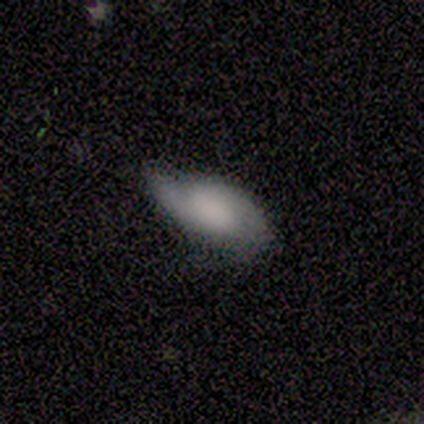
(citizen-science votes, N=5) Smooth or featured: featured or disk — 60% (smooth — 40%)
Edge-on disk: no — 100%
Bar: no — 67% (weak — 33%)
Spiral arms: yes — 67% (no — 33%)
Spiral winding: medium — 50% (tied with loose — 50%)
Spiral arm count: 2 — 100%
Bulge size: moderate — 67% (none — 33%)
Merging: minor disturbance — 60% (none — 20%)